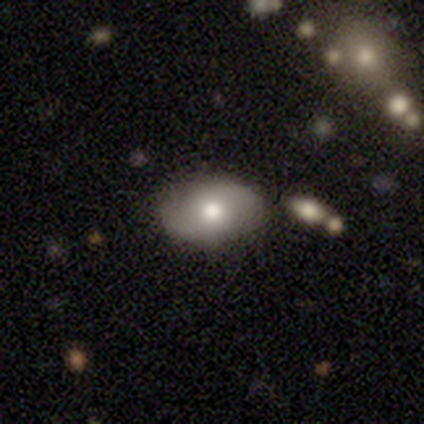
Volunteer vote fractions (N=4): Smooth or featured? smooth (100%)
How rounded? in between (100%)
Merging? none (100%)